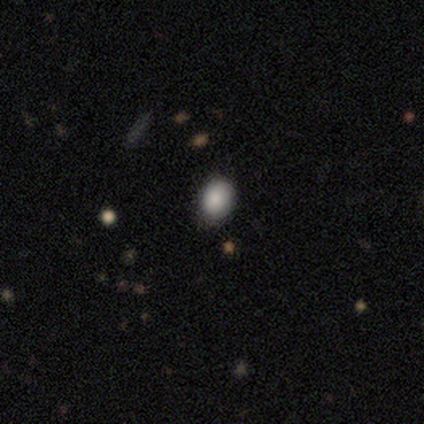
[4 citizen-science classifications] smooth_or_featured: smooth (p=0.75) [alt: star or artifact p=0.25]
how_rounded: in between (p=1.00)
merging: none (p=1.00)